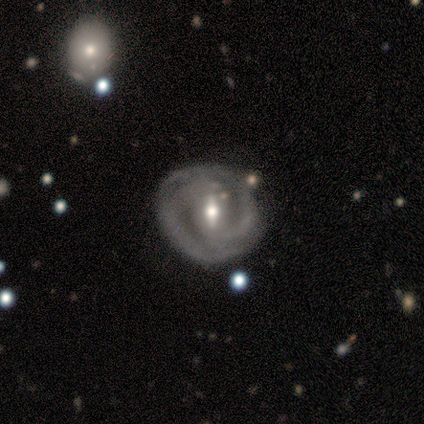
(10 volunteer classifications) Smooth or featured: featured or disk — 90% (smooth — 10%)
Edge-on disk: no — 100%
Bar: weak — 67% (strong — 33%)
Spiral arms: yes — 100%
Spiral winding: tight — 78% (medium — 22%)
Spiral arm count: 2 — 89% (3 — 11%)
Bulge size: moderate — 89% (large — 11%)
Merging: none — 60% (minor disturbance — 30%)